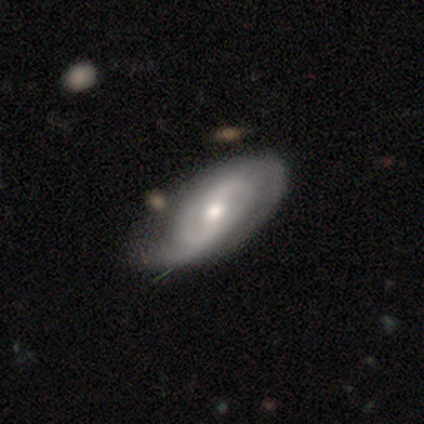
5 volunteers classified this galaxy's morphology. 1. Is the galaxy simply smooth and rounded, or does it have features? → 60% featured or disk, 20% smooth, 20% star or artifact.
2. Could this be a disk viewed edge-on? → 100% no, 0% yes.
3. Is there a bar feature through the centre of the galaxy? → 67% weak, 33% no, 0% strong.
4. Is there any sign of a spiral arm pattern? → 100% yes, 0% no.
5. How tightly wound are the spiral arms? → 33% tight (tied), 33% medium (tied), 33% loose (tied).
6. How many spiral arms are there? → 67% can't tell, 33% 2, 0% 1, 0% 3, 0% 4, 0% more than 4.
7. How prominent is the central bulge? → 67% moderate, 33% small, 0% dominant, 0% large, 0% none.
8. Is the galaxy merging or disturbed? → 50% none, 25% minor disturbance, 25% major disturbance, 0% merger.